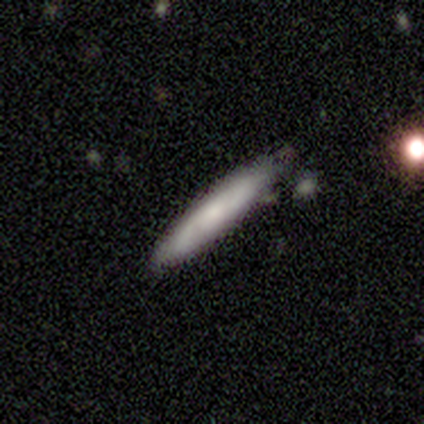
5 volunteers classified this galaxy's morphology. This appears to be a smooth galaxy with no disk features (60%) that is cigar-shaped (100%). Merging: none (75%).